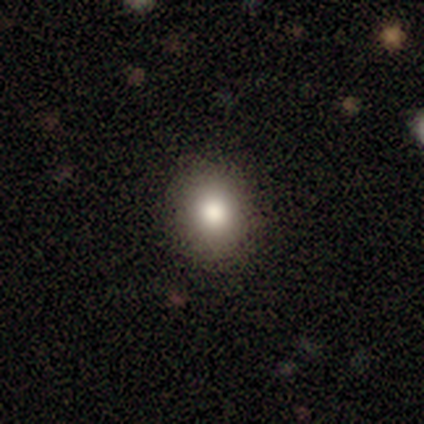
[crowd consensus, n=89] Smooth or featured? smooth (78%)
How rounded? round (70%)
Merging? none (92%)